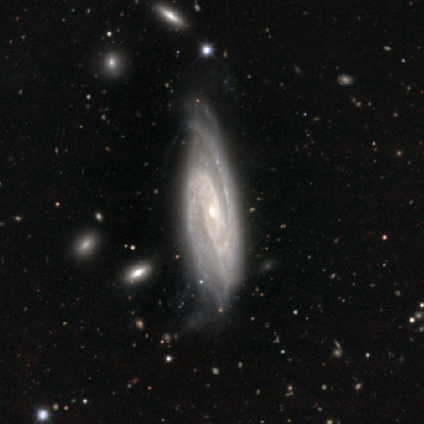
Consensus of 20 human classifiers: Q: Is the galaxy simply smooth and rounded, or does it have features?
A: featured or disk — 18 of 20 (90%).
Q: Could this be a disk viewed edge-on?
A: no — 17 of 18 (94%).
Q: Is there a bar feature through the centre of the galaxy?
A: no — 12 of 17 (71%).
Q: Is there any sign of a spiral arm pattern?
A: yes — 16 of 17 (94%).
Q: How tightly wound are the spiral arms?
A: tight — 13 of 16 (81%).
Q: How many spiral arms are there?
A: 2 — 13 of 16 (81%).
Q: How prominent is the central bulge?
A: small — 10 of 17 (59%).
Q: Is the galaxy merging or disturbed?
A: none — 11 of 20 (55%).